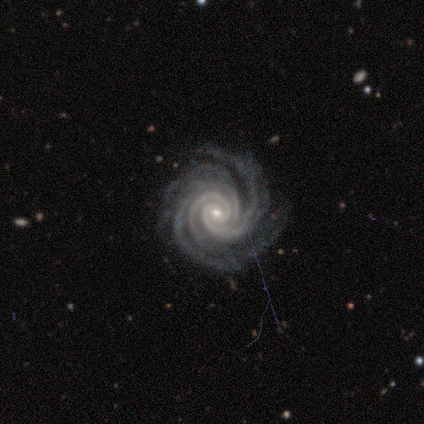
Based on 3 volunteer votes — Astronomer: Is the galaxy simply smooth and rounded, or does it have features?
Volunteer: featured or disk — 100%.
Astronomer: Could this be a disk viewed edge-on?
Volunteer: no — 100%.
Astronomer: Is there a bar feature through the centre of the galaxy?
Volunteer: no — 100%.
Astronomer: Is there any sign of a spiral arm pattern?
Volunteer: yes — 100%.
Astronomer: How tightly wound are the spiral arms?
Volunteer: tight — 100%.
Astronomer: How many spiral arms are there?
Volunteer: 3 — 33%, tied with 4 and more than 4 at 33%.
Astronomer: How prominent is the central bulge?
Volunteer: small — 67%.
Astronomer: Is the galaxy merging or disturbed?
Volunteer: minor disturbance — 67%.